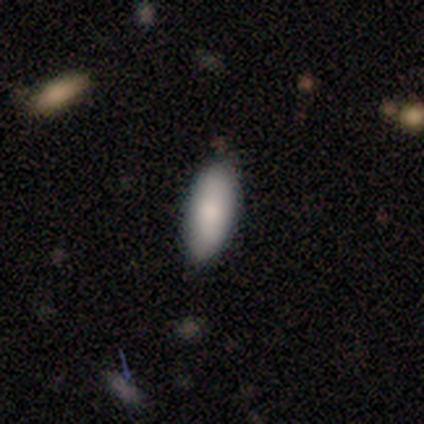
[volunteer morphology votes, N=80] A smooth galaxy with no disk features (90%) that is in between round and cigar-shaped (86%). Merging: none (40%).